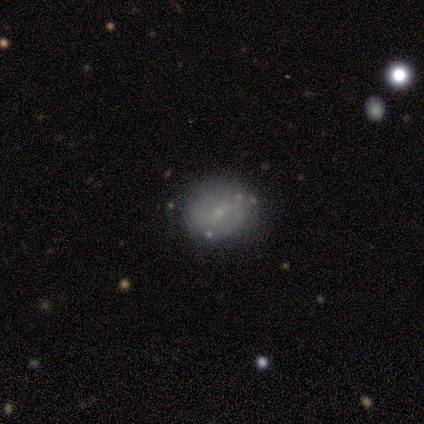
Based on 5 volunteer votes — This appears to be a featured or disk galaxy (60%) with a weak bar (100%), 2 (67%) medium (100%) spiral arms (100%) and a small central bulge (100%). Merging: none (100%).